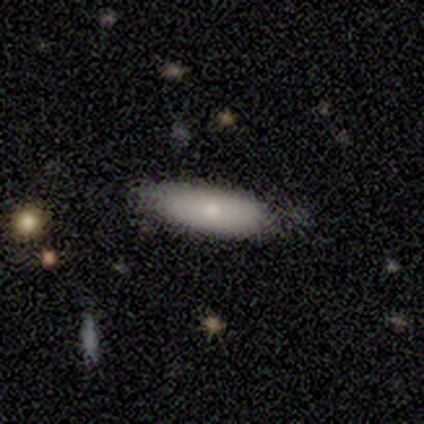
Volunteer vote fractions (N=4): Q: Smooth or featured?
A: smooth (50%); tied with: featured or disk (50%)
Q: How rounded?
A: cigar-shaped (100%)
Q: Merging?
A: minor disturbance (75%); runner-up: none (25%)